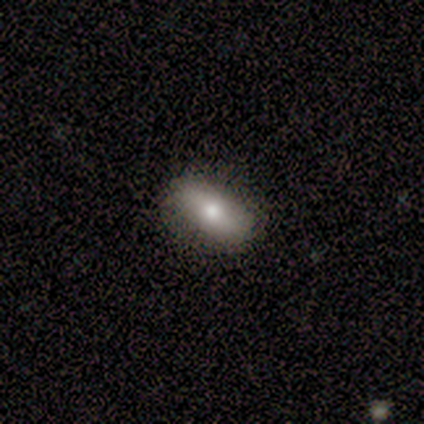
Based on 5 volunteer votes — smooth_or_featured: smooth (p=1.00)
how_rounded: in between (p=0.80) [alt: cigar-shaped p=0.20]
merging: none (p=0.80) [alt: minor disturbance p=0.20]